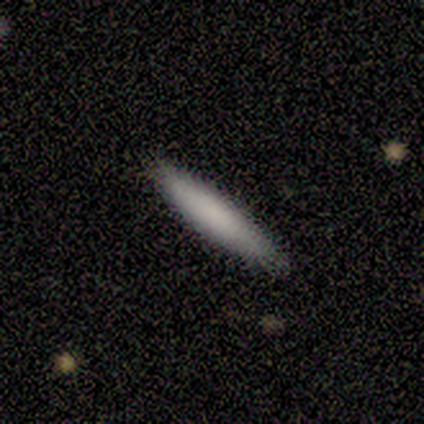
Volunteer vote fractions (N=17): Smooth or featured?
  - smooth: 71% *
  - featured or disk: 29%
  - star or artifact: 0%
How rounded?
  - cigar-shaped: 92% *
  - in between: 8%
  - round: 0%
Merging?
  - none: 88% *
  - minor disturbance: 12%
  - major disturbance: 0%
  - merger: 0%